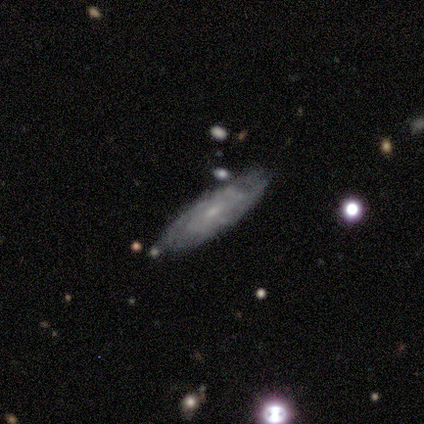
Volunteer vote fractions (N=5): Morphology: type=featured or disk (100%); edge-on=yes (60%); edge-on bulge=none (67%); merging=none (100%).